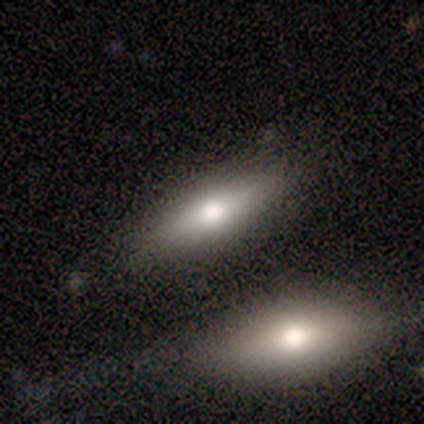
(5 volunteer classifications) smooth 80%, featured or disk 20%, star or artifact 0%. Down the decision tree: how rounded — in between (75%); merging — none (80%).